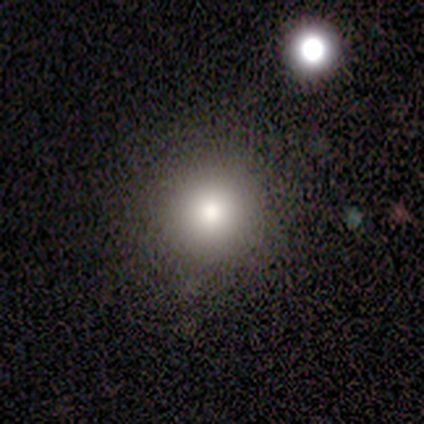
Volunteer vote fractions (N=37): This is likely a smooth galaxy (68%). How rounded: clearly round (92%). Merging: clearly none (87%).